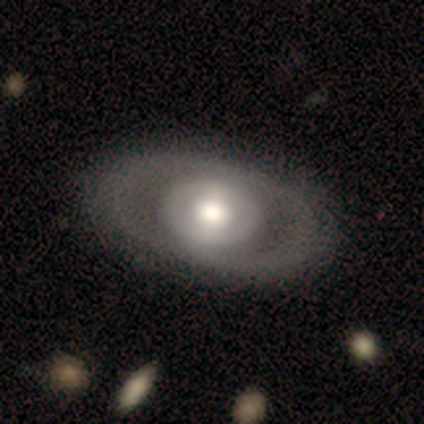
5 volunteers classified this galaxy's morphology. Q: Smooth or featured?
A: featured or disk (60%); runner-up: smooth (40%)
Q: Edge-on disk?
A: no (100%)
Q: Bar?
A: strong (67%); runner-up: no (33%)
Q: Spiral arms?
A: no (67%); runner-up: yes (33%)
Q: Bulge size?
A: large (67%); runner-up: moderate (33%)
Q: Merging?
A: none (80%); runner-up: merger (20%)